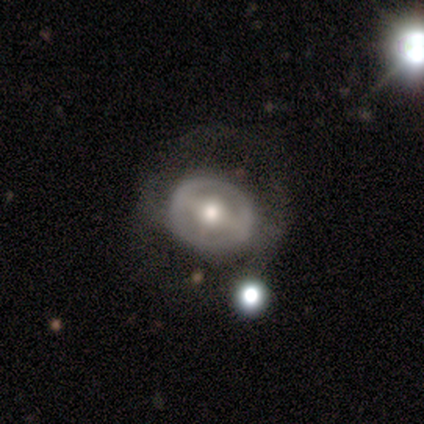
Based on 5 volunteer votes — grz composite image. It shows a featured or disk galaxy (80%) with a weak bar (50%), no spiral arms (100%) and a moderate central bulge (50%, tied with small). Merging: none (60%).